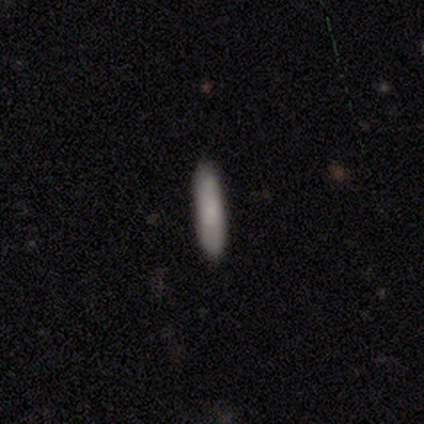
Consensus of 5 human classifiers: Smooth or featured? smooth (100%)
How rounded? cigar-shaped (100%)
Merging? none (100%)